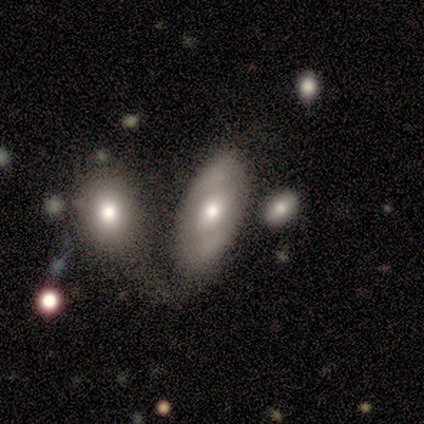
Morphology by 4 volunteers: Smooth or featured?
  - smooth: 50% * (tied)
  - featured or disk: 50% * (tied)
  - star or artifact: 0%
How rounded?
  - in between: 100% *
  - round: 0%
  - cigar-shaped: 0%
Merging?
  - merger: 50% *
  - none: 25%
  - minor disturbance: 25%
  - major disturbance: 0%